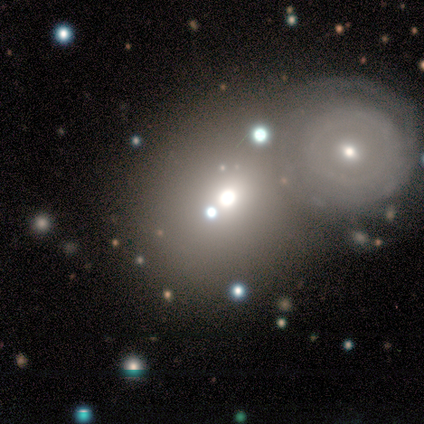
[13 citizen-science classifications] This appears to be a smooth galaxy with no disk features (54%) that is round (100%). Merging: merger (67%).